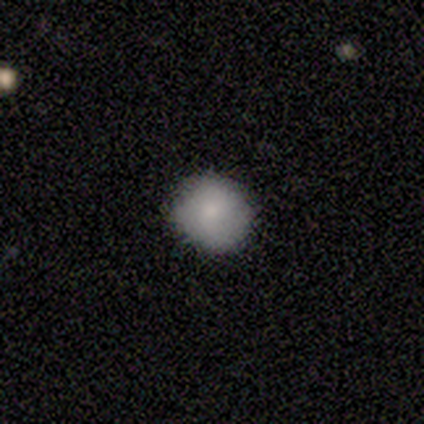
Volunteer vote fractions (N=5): Smooth or featured?
  - featured or disk: 60% *
  - smooth: 40%
  - star or artifact: 0%
Edge-on disk?
  - no: 100% *
  - yes: 0%
Bar?
  - no: 100% *
  - strong: 0%
  - weak: 0%
Spiral arms?
  - yes: 100% *
  - no: 0%
Spiral winding?
  - loose: 67% *
  - tight: 33%
  - medium: 0%
Spiral arm count?
  - 2: 67% *
  - more than 4: 33%
  - 1: 0%
  - 3: 0%
  - 4: 0%
  - can't tell: 0%
Bulge size?
  - moderate: 67% *
  - none: 33%
  - dominant: 0%
  - large: 0%
  - small: 0%
Merging?
  - none: 60% *
  - minor disturbance: 40%
  - major disturbance: 0%
  - merger: 0%